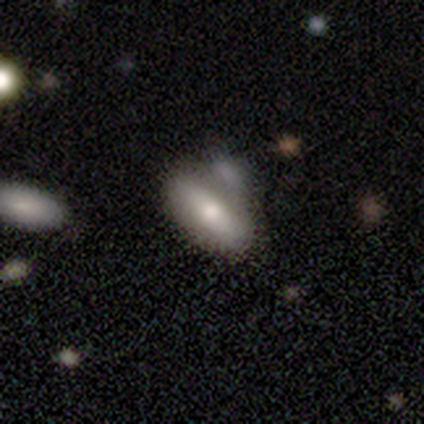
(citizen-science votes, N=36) Smooth or featured? 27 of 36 (75%) said smooth. How rounded? 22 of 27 (81%) said in between. Merging? 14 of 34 (41%) said none.